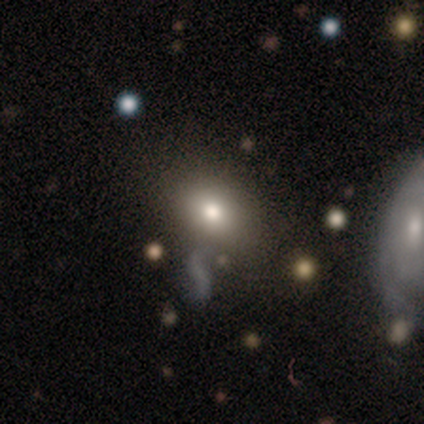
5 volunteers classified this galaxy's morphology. Volunteers were most divided on "how rounded": in between: 75%, round: 25%, cigar-shaped: 0%. More confident: merging — none (100%); smooth or featured — smooth (80%).